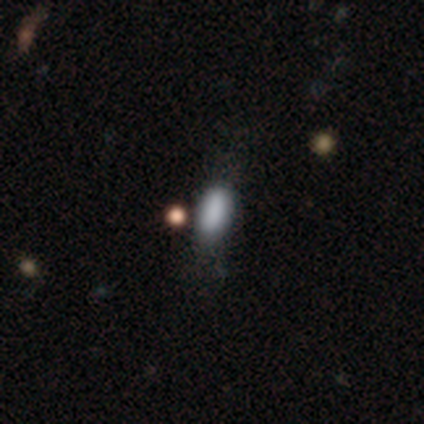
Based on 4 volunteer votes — smooth-or-featured: smooth: 100% | featured or disk: 0% | star or artifact: 0%
  how-rounded: in between: 50% | round: 25% | cigar-shaped: 25%
  merging: none: 75% | minor disturbance: 25% | major disturbance: 0% | merger: 0%